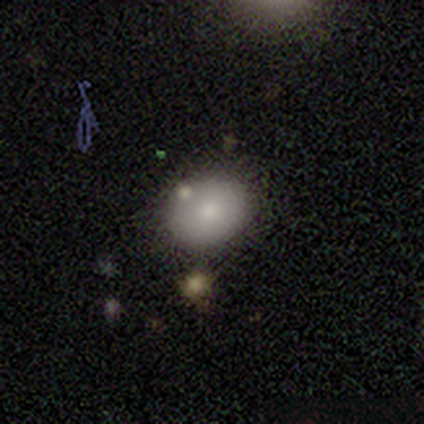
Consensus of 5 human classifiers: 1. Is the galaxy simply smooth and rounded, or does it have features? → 60% smooth, 40% featured or disk, 0% star or artifact.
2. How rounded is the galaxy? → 100% in between, 0% round, 0% cigar-shaped.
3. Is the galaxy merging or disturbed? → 80% none, 20% minor disturbance, 0% major disturbance, 0% merger.